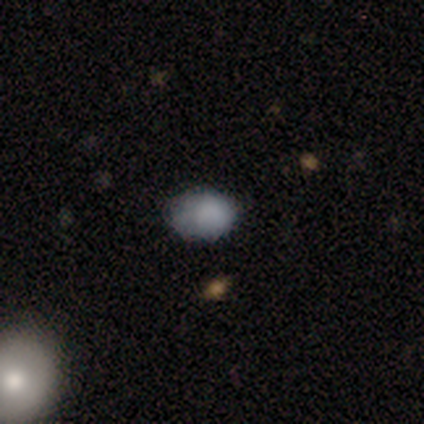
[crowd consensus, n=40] Volunteers were most divided on "how rounded": in between: 77%, round: 23%, cigar-shaped: 0%. More confident: merging — none (83%); smooth or featured — smooth (75%).